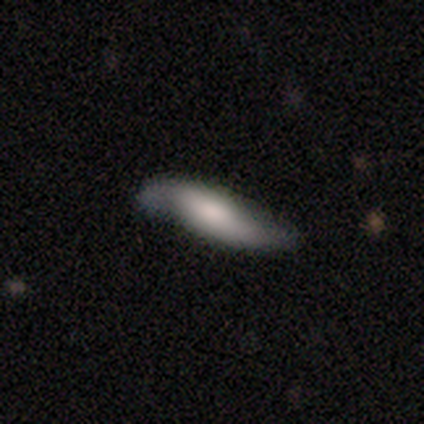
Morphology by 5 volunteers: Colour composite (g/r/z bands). It shows a smooth galaxy with no disk features (60%) that is in between round and cigar-shaped (67%). Merging: none (75%).